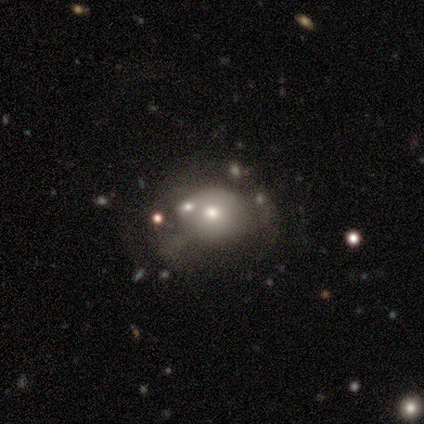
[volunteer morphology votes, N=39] Q: Smooth or featured?
A: smooth (56%); runner-up: featured or disk (26%)
Q: How rounded?
A: round (77%); runner-up: in between (23%)
Q: Merging?
A: none (41%); runner-up: minor disturbance (34%)